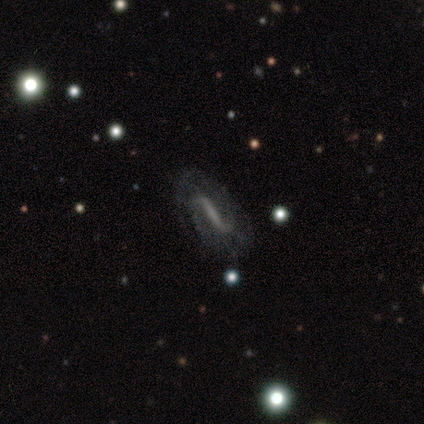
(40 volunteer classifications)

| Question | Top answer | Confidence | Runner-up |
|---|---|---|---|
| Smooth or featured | featured or disk | 82% | smooth (10%) |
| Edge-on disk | no | 79% | yes (21%) |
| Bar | strong | 65% | weak (19%) |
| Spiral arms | yes | 92% | no (8%) |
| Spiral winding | loose | 50% | medium (33%) |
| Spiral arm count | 2 | 75% | 1 (12%) |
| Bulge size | none | 69% | small (19%) |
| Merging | none | 81% | major disturbance (14%) |